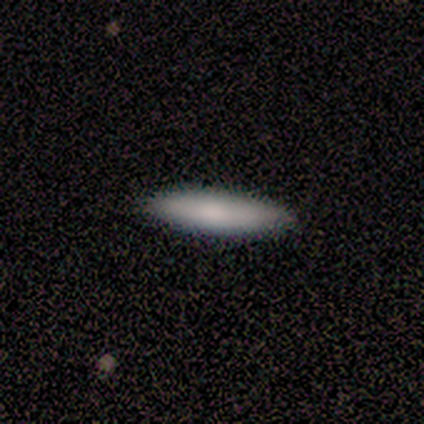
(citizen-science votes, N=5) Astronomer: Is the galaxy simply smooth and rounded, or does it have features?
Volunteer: smooth — 80%.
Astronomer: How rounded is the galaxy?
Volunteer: cigar-shaped — 75%.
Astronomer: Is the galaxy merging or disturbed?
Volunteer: none — 100%.